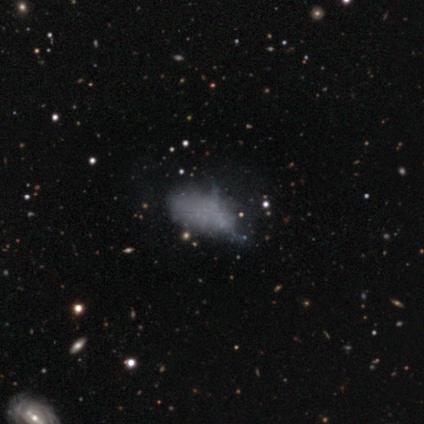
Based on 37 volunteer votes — Smooth or featured: smooth — 46% (featured or disk — 32%)
How rounded: in between — 82% (cigar-shaped — 12%)
Merging: none — 38% (minor disturbance — 31%)